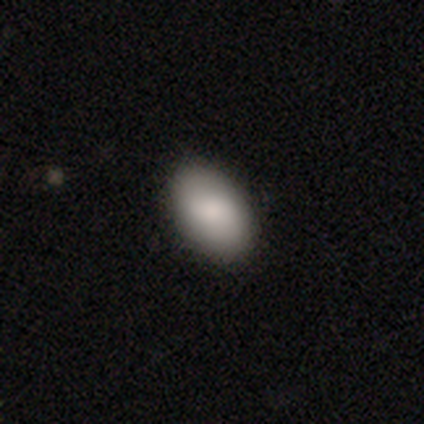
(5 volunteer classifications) Q: Smooth or featured?
A: smooth (80%); runner-up: featured or disk (20%)
Q: How rounded?
A: in between (75%); runner-up: round (25%)
Q: Merging?
A: none (80%); runner-up: minor disturbance (20%)